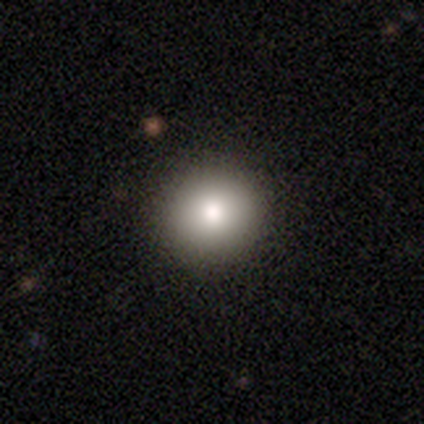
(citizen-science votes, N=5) Morphology: type=smooth (80%); roundness=round (100%); merging=none (75%).